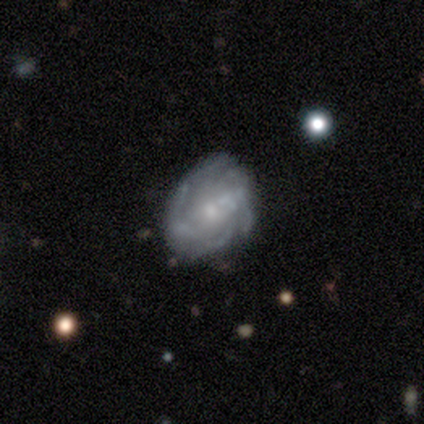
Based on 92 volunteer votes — Volunteers were most divided on "bulge size": small: 50%, moderate: 40%, none: 6%, large: 4%, dominant: 0%. Remaining: edge-on disk — no (100%); spiral arms — yes (87%); smooth or featured — featured or disk (76%); bar — no (64%); merging — none (56%); spiral winding — tight (52%); spiral arm count — can't tell (38%).